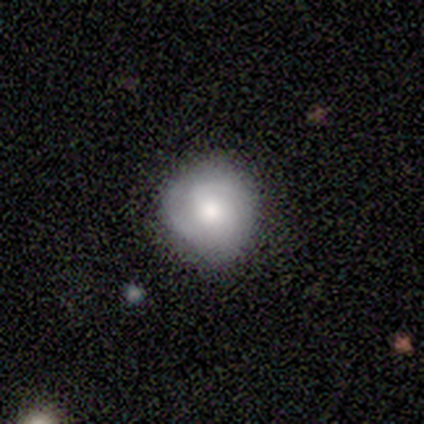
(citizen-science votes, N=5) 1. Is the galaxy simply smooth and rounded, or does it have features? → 60% featured or disk, 40% smooth, 0% star or artifact.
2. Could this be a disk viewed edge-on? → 100% no, 0% yes.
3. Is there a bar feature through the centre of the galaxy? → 67% weak, 33% no, 0% strong.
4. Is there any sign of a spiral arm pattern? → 100% yes, 0% no.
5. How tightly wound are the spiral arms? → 67% tight, 33% medium, 0% loose.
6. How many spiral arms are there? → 67% 2, 33% can't tell, 0% 1, 0% 3, 0% 4, 0% more than 4.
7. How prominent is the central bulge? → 67% moderate, 33% large, 0% dominant, 0% small, 0% none.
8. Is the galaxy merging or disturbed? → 100% none, 0% minor disturbance, 0% major disturbance, 0% merger.